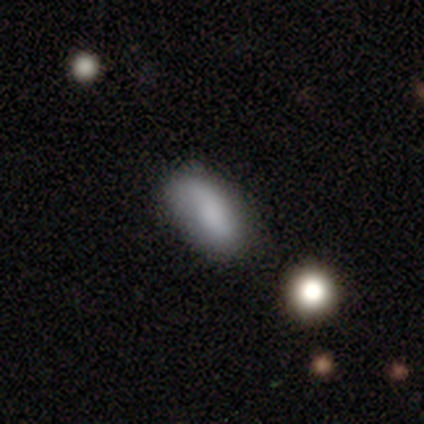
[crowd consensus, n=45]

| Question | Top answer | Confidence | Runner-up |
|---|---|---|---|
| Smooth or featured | smooth | 67% | featured or disk (24%) |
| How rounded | in between | 83% | cigar-shaped (17%) |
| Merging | none | 66% | minor disturbance (20%) |